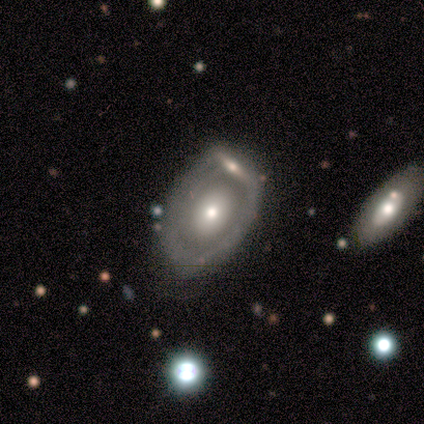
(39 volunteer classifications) Smooth or featured? featured or disk (69%)
Edge-on disk? no (93%)
Bar? no (88%)
Spiral arms? no (80%)
Bulge size? moderate (48%)
Merging? none (58%)